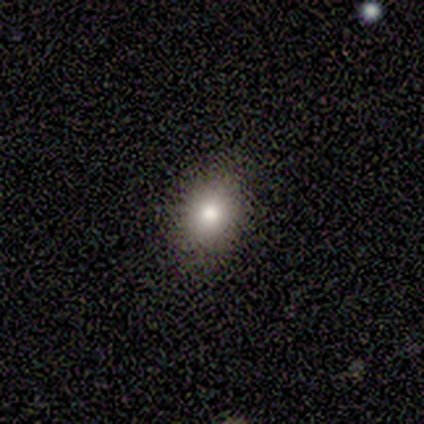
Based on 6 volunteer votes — This is clearly a smooth galaxy (100%). How rounded: possibly round (50%, tied with in between). Merging: clearly none (100%).